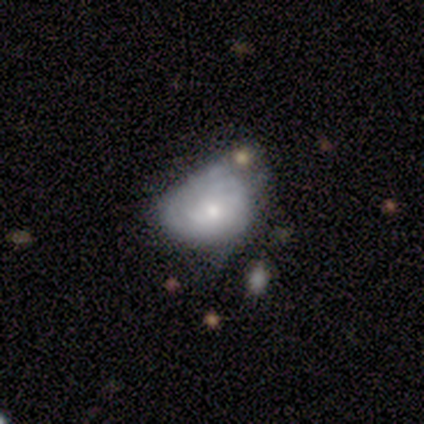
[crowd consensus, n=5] Overall: smooth (60%; featured or disk 40%). How rounded: in between (67%; round 33%). Merging: none (40%, tied with minor disturbance).